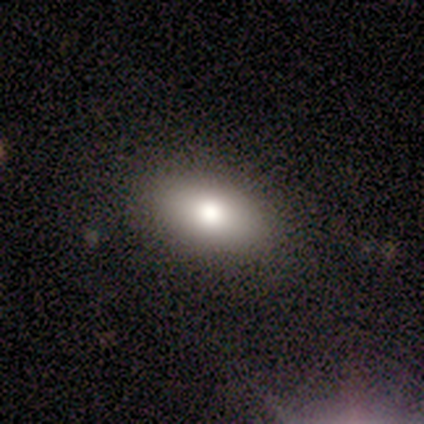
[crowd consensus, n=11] A smooth galaxy with no disk features (73%) that is in between round and cigar-shaped (75%).

Vote fractions:
- Smooth or featured? smooth: 73% / featured or disk: 18% / star or artifact: 9%
- How rounded? in between: 75% / round: 12% / cigar-shaped: 12%
- Merging? none: 90% / major disturbance: 10% / minor disturbance: 0% / merger: 0%